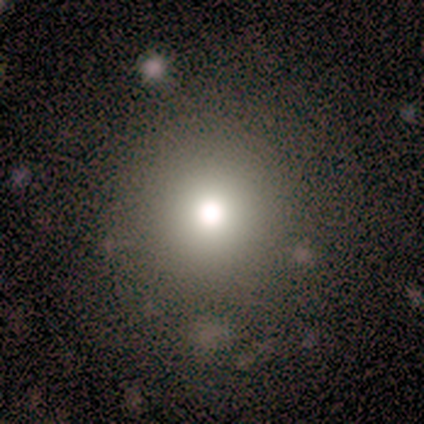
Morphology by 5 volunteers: Volunteers were most divided on "smooth or featured": smooth: 60%, star or artifact: 40%, featured or disk: 0%. More confident: how rounded — round (100%); merging — none (100%).